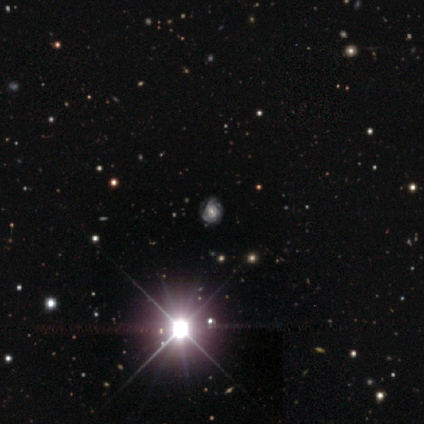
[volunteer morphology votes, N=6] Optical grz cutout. It shows a star or artifact, not a galaxy (67%).